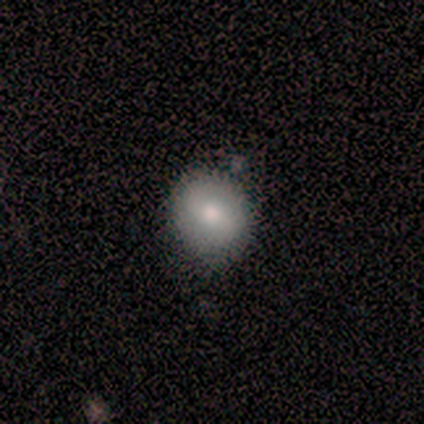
Overall: smooth (100%). How rounded: round (100%). Merging: none (75%).